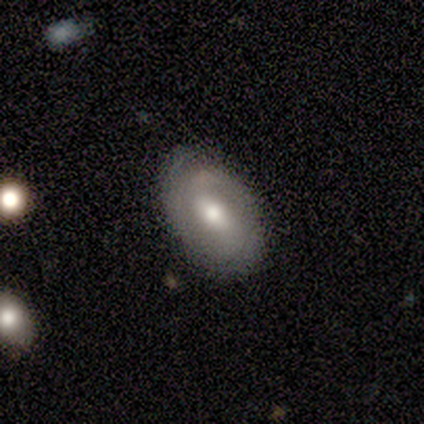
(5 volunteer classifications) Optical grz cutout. It shows a featured or disk galaxy (80%) with a weak bar (75%), tight (100%) spiral arms (75%) and a moderate central bulge (75%). Merging: none (80%).